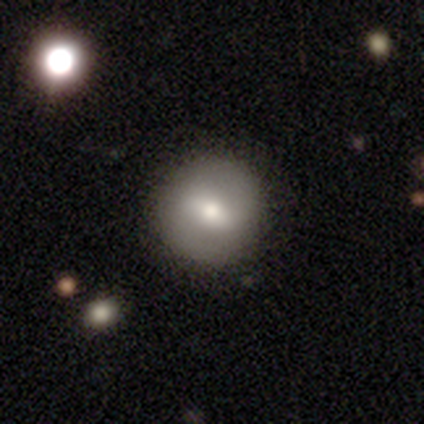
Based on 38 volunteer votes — This appears to be a smooth galaxy with no disk features (63%) that is round (92%). Merging: none (78%).